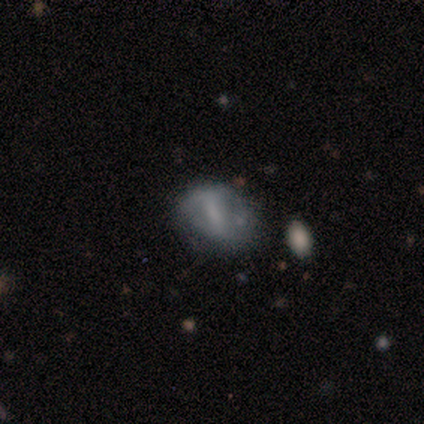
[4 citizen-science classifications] A featured or disk galaxy (75%) with a weak bar (100%), 2 (50%, tied with 4) tight (50%, tied with loose) spiral arms (67%) and no central bulge (100%).

Vote fractions:
- Smooth or featured? featured or disk: 75% / smooth: 25% / star or artifact: 0%
- Edge-on disk? no: 100% / yes: 0%
- Bar? weak: 100% / strong: 0% / no: 0%
- Spiral arms? yes: 67% / no: 33%
- Spiral winding? tight: 50% (tied) / loose: 50% (tied) / medium: 0%
- Spiral arm count? 2: 50% (tied) / 4: 50% (tied) / 1: 0% / 3: 0% / more than 4: 0% / can't tell: 0%
- Bulge size? none: 100% / dominant: 0% / large: 0% / moderate: 0% / small: 0%
- Merging? minor disturbance: 75% / none: 25% / major disturbance: 0% / merger: 0%